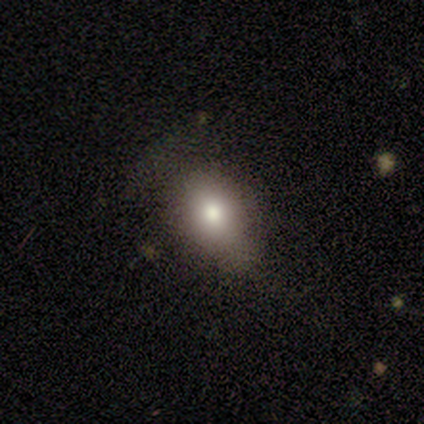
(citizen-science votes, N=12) A smooth galaxy with no disk features (83%) that is in between round and cigar-shaped (70%).

Vote fractions:
- Smooth or featured? smooth: 83% / featured or disk: 8% / star or artifact: 8%
- How rounded? in between: 70% / round: 30% / cigar-shaped: 0%
- Merging? none: 45% / minor disturbance: 36% / major disturbance: 18% / merger: 0%